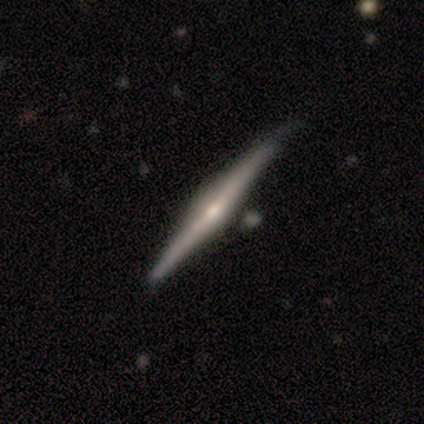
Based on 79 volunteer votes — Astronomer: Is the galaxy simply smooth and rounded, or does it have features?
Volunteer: featured or disk — 85%.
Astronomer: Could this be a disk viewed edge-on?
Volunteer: yes — 99%.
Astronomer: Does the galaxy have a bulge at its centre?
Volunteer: rounded — 85%.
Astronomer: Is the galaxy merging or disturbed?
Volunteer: none — 39%.